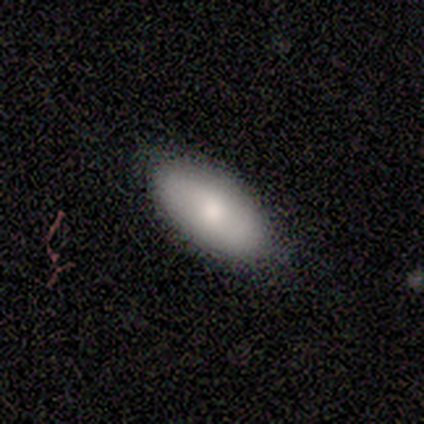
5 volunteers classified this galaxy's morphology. This is clearly a smooth galaxy (100%). How rounded: clearly in between (80%). Merging: likely none (60%).